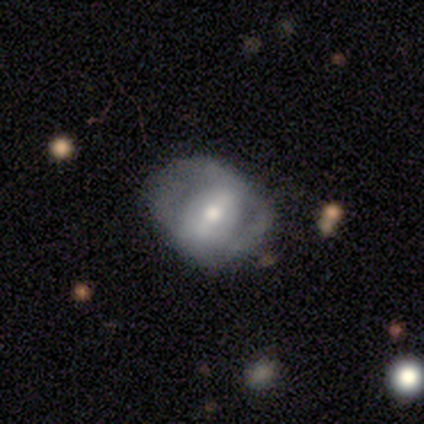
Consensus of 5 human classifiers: Smooth or featured? smooth (40%, tied with featured or disk)
How rounded? round (50%, tied with in between)
Merging? none (75%)